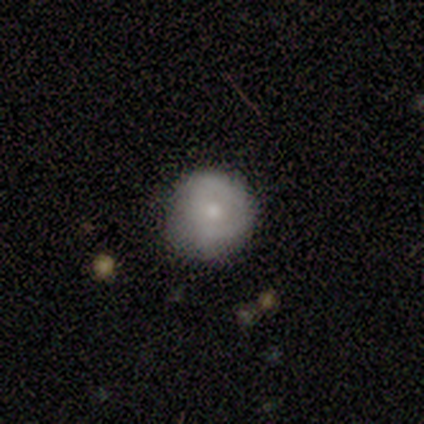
Morphology: type=featured or disk (60%); edge-on=no (67%); bar=no (100%); spiral arms=no (100%); bulge=small (50%, tied with none); merging=none (75%).